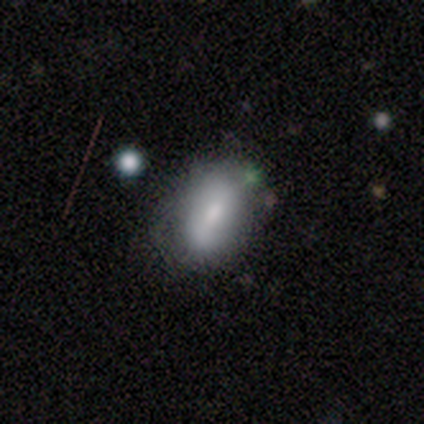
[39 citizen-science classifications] Volunteers were most divided on "merging": none: 58%, minor disturbance: 32%, major disturbance: 5%, merger: 5%. More confident: how rounded — in between (80%); smooth or featured — smooth (64%).